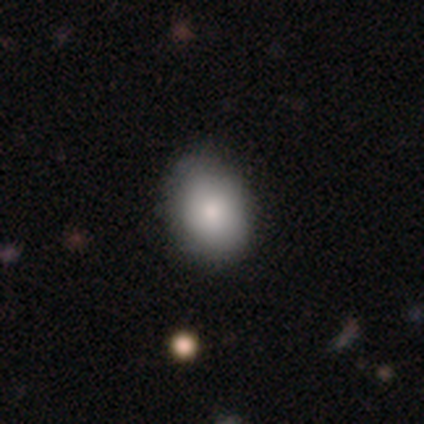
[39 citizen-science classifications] Smooth or featured? smooth (72%)
How rounded? in between (61%)
Merging? none (61%)